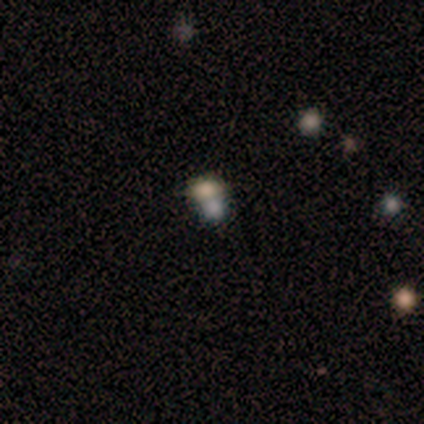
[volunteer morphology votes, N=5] smooth_or_featured: smooth (p=0.60) [alt: star or artifact p=0.40]
how_rounded: round (p=0.67) [alt: in between p=0.33]
merging: merger (p=1.00)